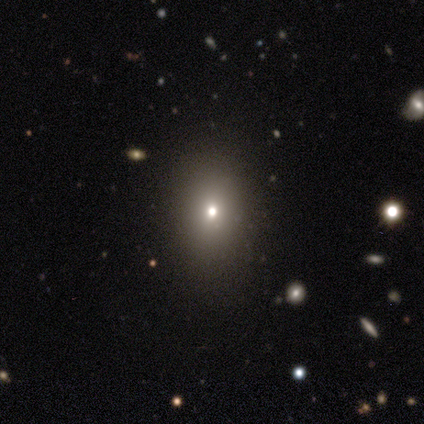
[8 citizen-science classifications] Overall: smooth (62%; featured or disk 38%). How rounded: in between (100%). Merging: none (75%).